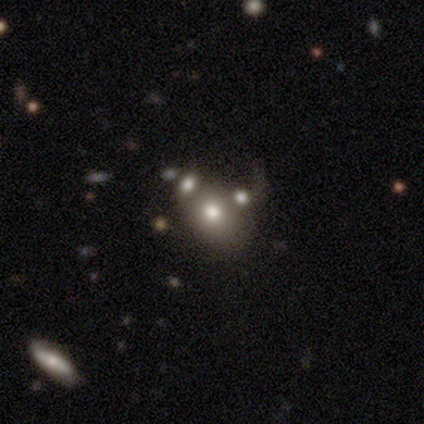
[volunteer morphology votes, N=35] This appears to be a smooth galaxy with no disk features (69%) that is in between round and cigar-shaped (54%). Merging: merger (52%).